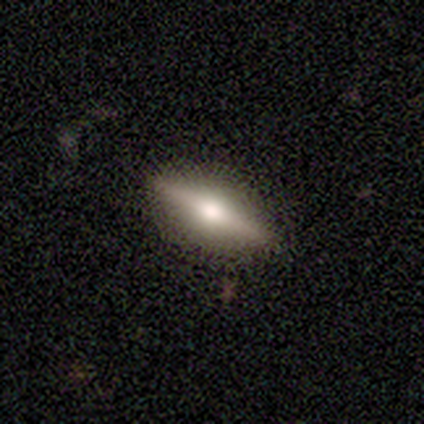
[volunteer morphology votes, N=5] This appears to be a featured or disk galaxy (100%) viewed edge-on (100%) with a rounded central bulge (100%). Merging: none (100%).